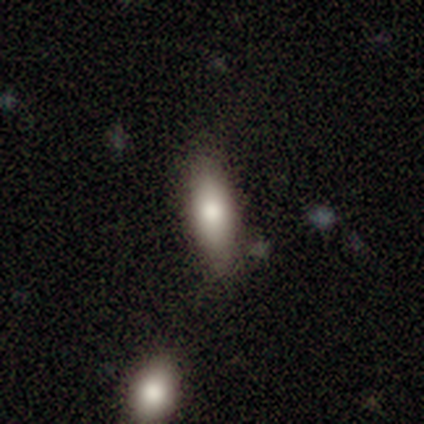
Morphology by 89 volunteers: This appears to be a smooth galaxy with no disk features (72%) that is in between round and cigar-shaped (62%). Merging: none (78%).